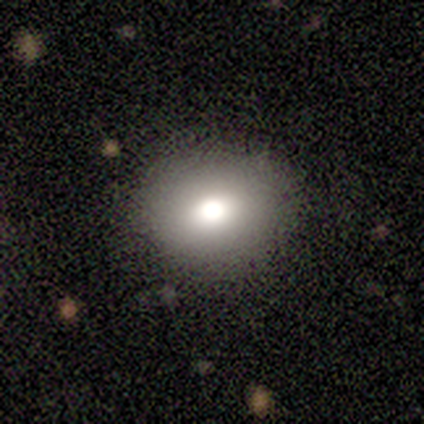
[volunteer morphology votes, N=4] smooth 100%, featured or disk 0%, star or artifact 0%. Down the decision tree: how rounded — in between (75%); merging — none (75%).